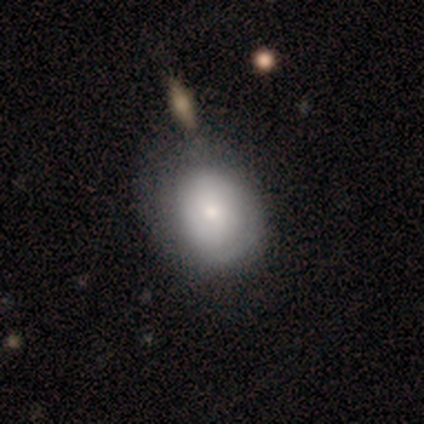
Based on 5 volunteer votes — Smooth or featured? 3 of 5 (60%) said smooth. How rounded? 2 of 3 (67%) said round. Merging? 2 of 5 (40%) said none.